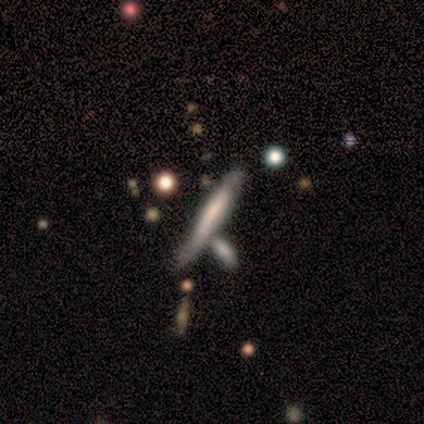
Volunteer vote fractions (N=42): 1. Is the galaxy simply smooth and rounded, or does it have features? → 45% featured or disk, 43% smooth, 12% star or artifact.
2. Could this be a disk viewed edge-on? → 84% yes, 16% no.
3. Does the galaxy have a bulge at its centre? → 50% none, 31% boxy, 19% rounded.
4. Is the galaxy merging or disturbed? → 32% none, 27% merger, 14% minor disturbance, 3% major disturbance.